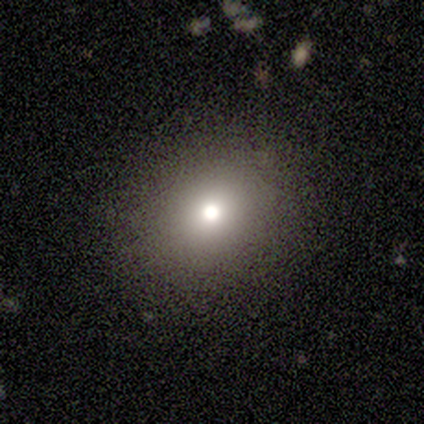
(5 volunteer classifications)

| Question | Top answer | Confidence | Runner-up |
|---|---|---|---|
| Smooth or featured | smooth | 100% | — |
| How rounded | round | 80% | in between (20%) |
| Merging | none | 100% | — |